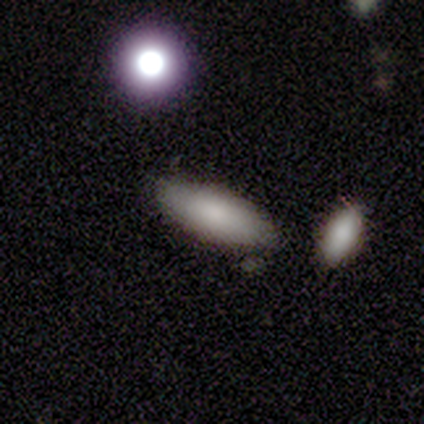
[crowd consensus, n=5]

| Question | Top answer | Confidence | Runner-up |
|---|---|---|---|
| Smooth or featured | smooth | 80% | star or artifact (20%) |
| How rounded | in between | 100% | — |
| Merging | none | 50% | minor disturbance (25%) |